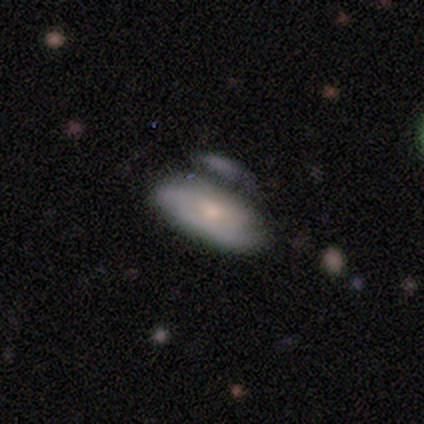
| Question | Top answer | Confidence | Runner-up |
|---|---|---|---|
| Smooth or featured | smooth | 75% | featured or disk (25%) |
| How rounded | in between | 100% | — |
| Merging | none | 50% | minor disturbance (25%) |